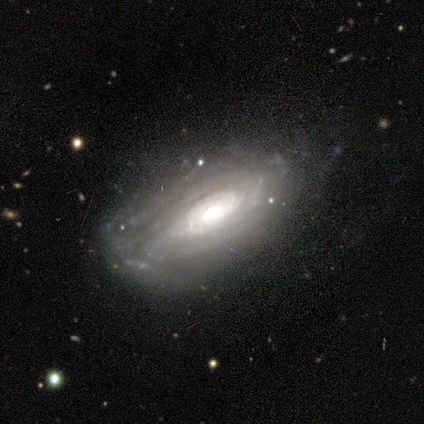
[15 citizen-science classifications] This is clearly a featured or disk galaxy (93%). It is clearly not viewed edge-on (100%). Bar: likely no (79%). Spiral arm pattern: clearly yes (86%). Spiral arm count: marginally can't tell (42%). Spiral winding: clearly tight (83%). Central bulge: possibly moderate (50%). Merging: likely none (60%).